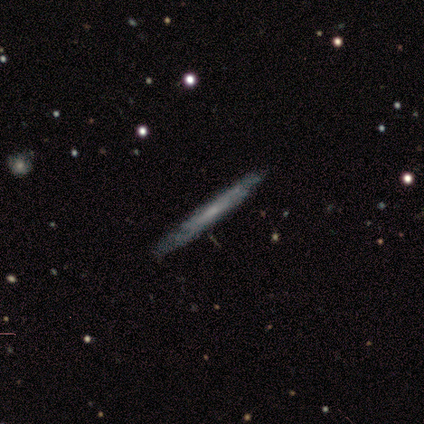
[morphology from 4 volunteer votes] This is possibly a smooth galaxy (50%, tied with featured or disk). How rounded: clearly cigar-shaped (100%). Merging: clearly none (100%).